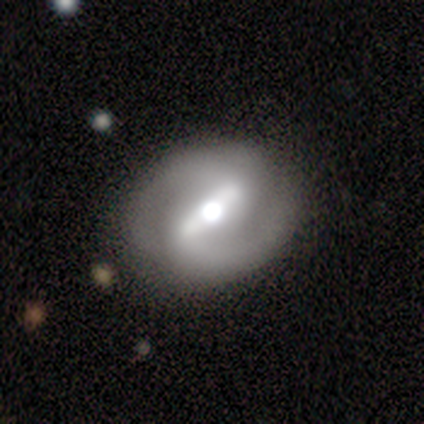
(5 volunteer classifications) A featured or disk galaxy (80%) with a strong bar (50%, tied with weak), 2 (100%) medium (100%) spiral arms (100%) and a large central bulge (50%, tied with moderate).

Vote fractions:
- Smooth or featured? featured or disk: 80% / smooth: 20% / star or artifact: 0%
- Edge-on disk? no: 100% / yes: 0%
- Bar? strong: 50% (tied) / weak: 50% (tied) / no: 0%
- Spiral arms? yes: 100% / no: 0%
- Spiral winding? medium: 100% / tight: 0% / loose: 0%
- Spiral arm count? 2: 100% / 1: 0% / 3: 0% / 4: 0% / more than 4: 0% / can't tell: 0%
- Bulge size? large: 50% (tied) / moderate: 50% (tied) / dominant: 0% / small: 0% / none: 0%
- Merging? none: 80% / major disturbance: 20% / minor disturbance: 0% / merger: 0%